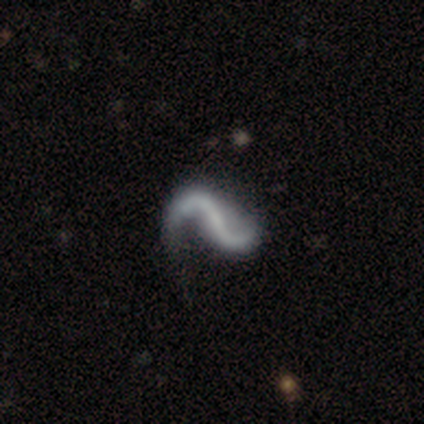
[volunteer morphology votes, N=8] smooth_or_featured: featured or disk (p=0.88) [alt: smooth p=0.12]
disk_edge_on: no (p=1.00)
bar: strong (p=0.43) [tied with: no p=0.43]
has_spiral_arms: yes (p=0.86) [alt: no p=0.14]
spiral_winding: loose (p=0.83) [alt: medium p=0.17]
spiral_arm_count: 2 (p=1.00)
bulge_size: none (p=0.86) [alt: small p=0.14]
merging: none (p=0.38) [tied with: minor disturbance p=0.38]